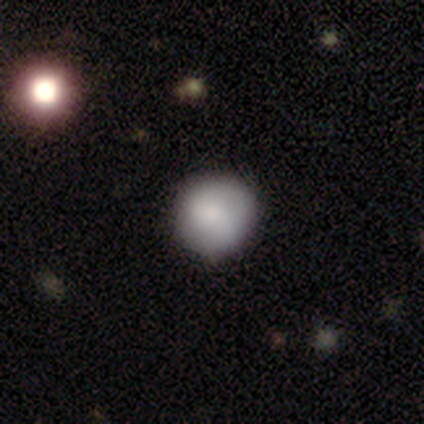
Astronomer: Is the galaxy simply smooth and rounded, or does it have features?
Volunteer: smooth — 69%.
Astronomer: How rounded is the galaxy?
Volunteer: round — 89%.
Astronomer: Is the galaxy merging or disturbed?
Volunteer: none — 100%.